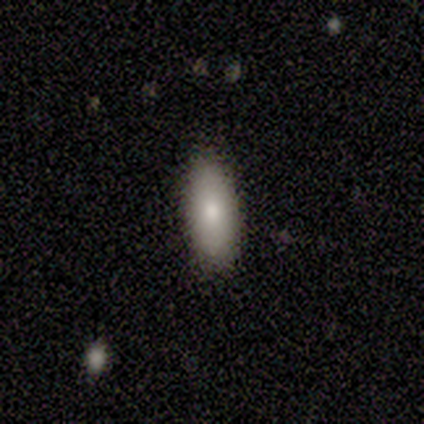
Smooth or featured: smooth — 100%
How rounded: in between — 50% (tied with cigar-shaped — 50%)
Merging: none — 100%